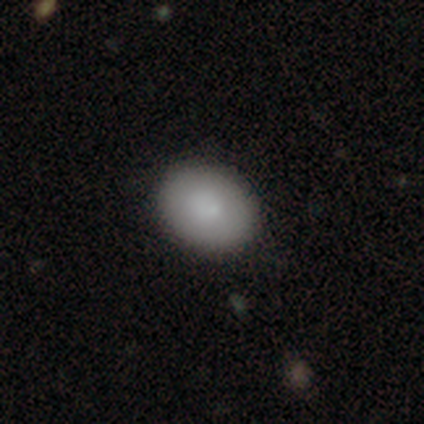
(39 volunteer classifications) smooth 82%, featured or disk 15%, star or artifact 3%. Down the decision tree: how rounded — in between (66%); merging — none (63%).